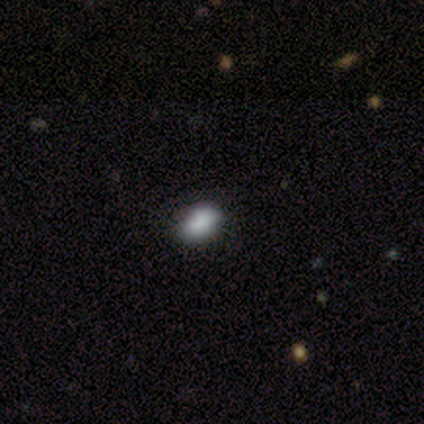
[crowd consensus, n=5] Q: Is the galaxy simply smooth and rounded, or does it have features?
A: smooth — 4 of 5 (80%).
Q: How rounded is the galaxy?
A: in between — 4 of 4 (100%).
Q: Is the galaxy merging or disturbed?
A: none — 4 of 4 (100%).